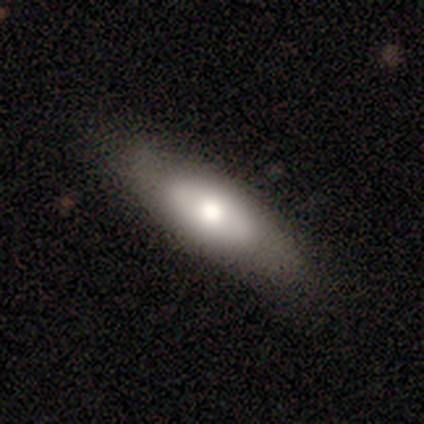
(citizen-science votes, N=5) smooth-or-featured: smooth: 60% | featured or disk: 20% | star or artifact: 20%
  how-rounded: cigar-shaped: 67% | in between: 33% | round: 0%
  merging: minor disturbance: 75% | none: 25% | major disturbance: 0% | merger: 0%